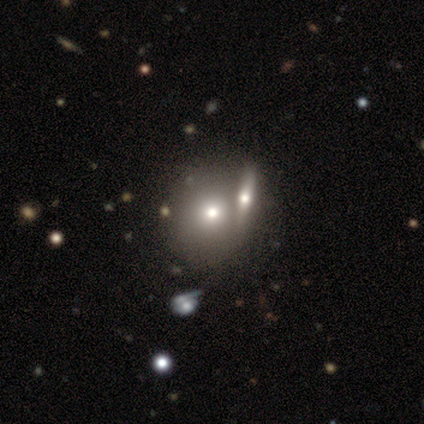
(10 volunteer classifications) smooth_or_featured: smooth (p=0.60) [alt: featured or disk p=0.20]
how_rounded: round (p=0.83) [alt: cigar-shaped p=0.17]
merging: none (p=0.75) [alt: minor disturbance p=0.12]